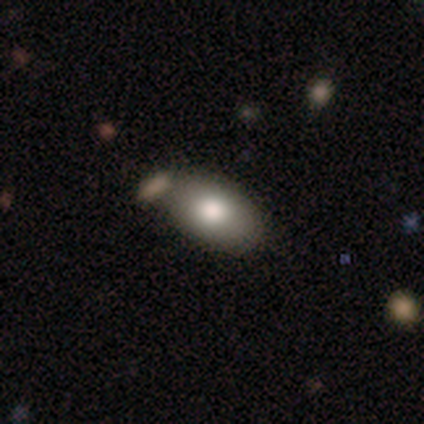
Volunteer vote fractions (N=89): A smooth galaxy with no disk features (84%) that is in between round and cigar-shaped (95%).

Vote fractions:
- Smooth or featured? smooth: 84% / featured or disk: 12% / star or artifact: 3%
- How rounded? in between: 95% / round: 3% / cigar-shaped: 3%
- Merging? none: 56% / merger: 23% / minor disturbance: 20% / major disturbance: 1%